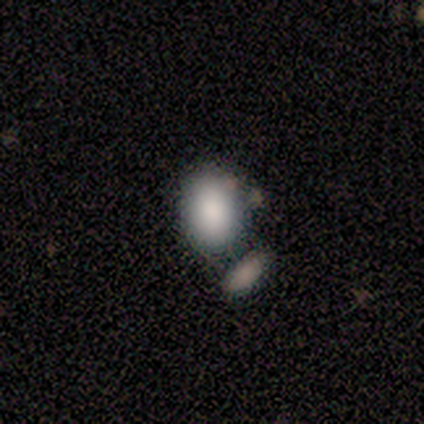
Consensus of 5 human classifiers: A smooth galaxy with no disk features (80%) that is in between round and cigar-shaped (75%). Merging: none (50%, tied with merger).